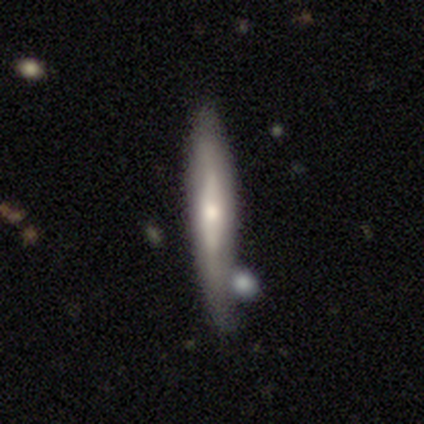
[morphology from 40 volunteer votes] Smooth or featured: featured or disk — 50% (smooth — 45%)
Edge-on disk: yes — 75% (no — 25%)
Edge-on bulge: rounded — 67% (none — 27%)
Merging: none — 58% (minor disturbance — 32%)